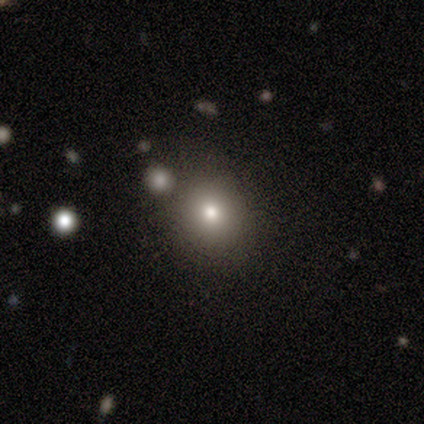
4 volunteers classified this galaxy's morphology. This appears to be a smooth galaxy with no disk features (50%) that is round (50%, tied with in between). Merging: none (100%).